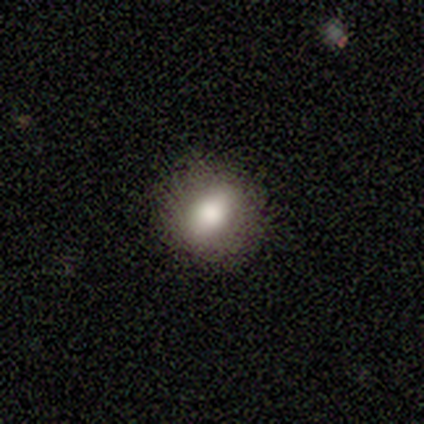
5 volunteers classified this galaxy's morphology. This is likely a smooth galaxy (60%). How rounded: clearly round (100%). Merging: clearly none (100%).